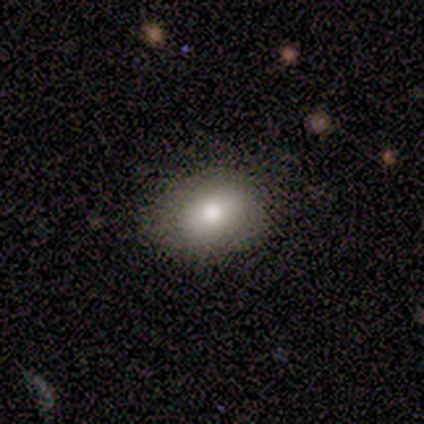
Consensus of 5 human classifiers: Smooth or featured?
  - smooth: 100% *
  - featured or disk: 0%
  - star or artifact: 0%
How rounded?
  - round: 60% *
  - in between: 40%
  - cigar-shaped: 0%
Merging?
  - none: 60% *
  - minor disturbance: 40%
  - major disturbance: 0%
  - merger: 0%